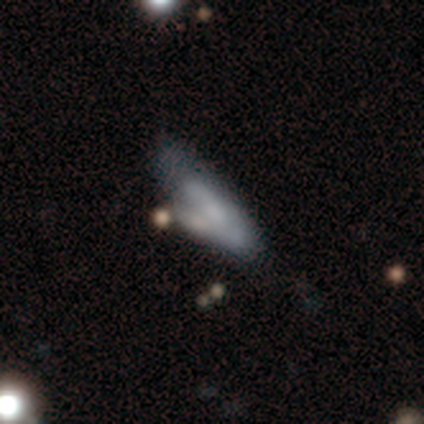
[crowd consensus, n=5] featured or disk 80%, smooth 20%, star or artifact 0%. Down the decision tree: edge-on disk — no (75%); bar — no (67%); spiral arms — no (100%); bulge size — moderate (33%, tied with small and none); merging — none (40%).